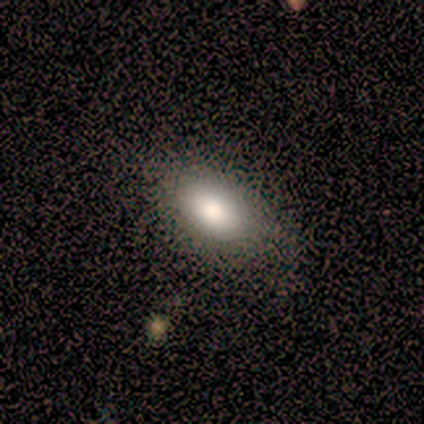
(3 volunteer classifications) Smooth or featured? 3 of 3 (100%) said smooth. How rounded? 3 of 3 (100%) said in between. Merging? 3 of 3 (100%) said none.